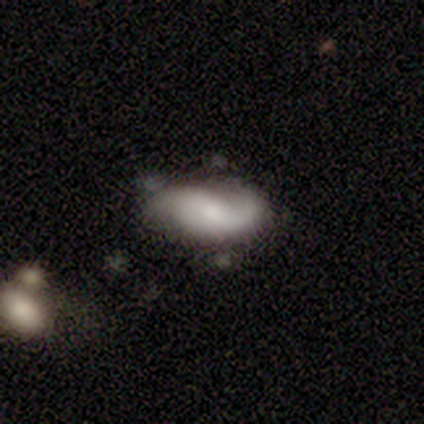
A featured or disk galaxy (56%) with no bar (67%), 2 (100%) loose (56%) spiral arms (100%) and a small central bulge (44%).

Vote fractions:
- Smooth or featured? featured or disk: 56% / smooth: 38% / star or artifact: 6%
- Edge-on disk? no: 100% / yes: 0%
- Bar? no: 67% / weak: 22% / strong: 11%
- Spiral arms? yes: 100% / no: 0%
- Spiral winding? loose: 56% / medium: 44% / tight: 0%
- Spiral arm count? 2: 100% / 1: 0% / 3: 0% / 4: 0% / more than 4: 0% / can't tell: 0%
- Bulge size? small: 44% / moderate: 33% / large: 11% / none: 11% / dominant: 0%
- Merging? none: 53% / minor disturbance: 27% / major disturbance: 20% / merger: 0%